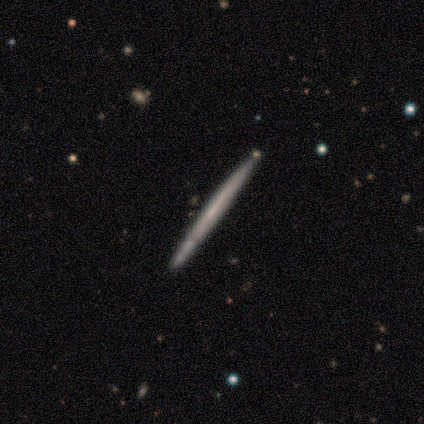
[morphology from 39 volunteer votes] Smooth or featured?
  - featured or disk: 64% *
  - smooth: 33%
  - star or artifact: 3%
Edge-on disk?
  - yes: 100% *
  - no: 0%
Edge-on bulge?
  - none: 92% *
  - boxy: 4%
  - rounded: 4%
Merging?
  - none: 63% *
  - merger: 5%
  - minor disturbance: 3%
  - major disturbance: 0%